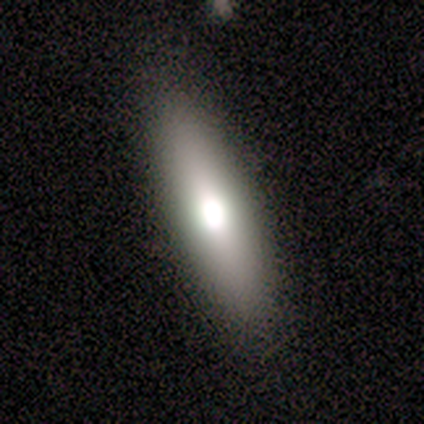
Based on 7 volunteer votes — A smooth galaxy with no disk features (86%) that is in between round and cigar-shaped (50%, tied with cigar-shaped).

Vote fractions:
- Smooth or featured? smooth: 86% / featured or disk: 14% / star or artifact: 0%
- How rounded? in between: 50% (tied) / cigar-shaped: 50% (tied) / round: 0%
- Merging? none: 86% / major disturbance: 14% / minor disturbance: 0% / merger: 0%